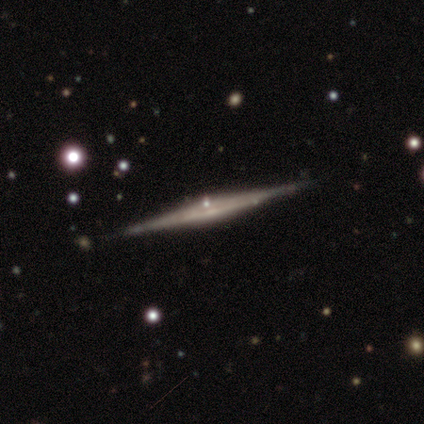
Morphology: type=smooth (60%); roundness=cigar-shaped (100%); merging=none (100%).